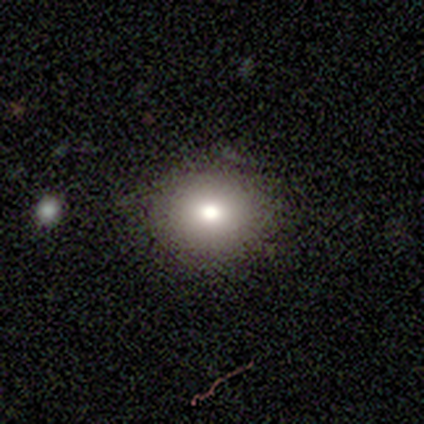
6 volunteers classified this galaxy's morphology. Q: Smooth or featured?
A: smooth (50%); runner-up: featured or disk (33%)
Q: How rounded?
A: round (67%); runner-up: in between (33%)
Q: Merging?
A: none (100%)